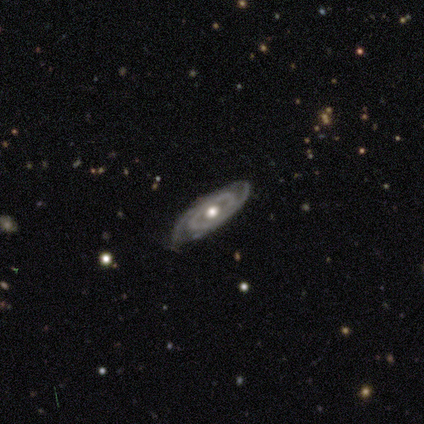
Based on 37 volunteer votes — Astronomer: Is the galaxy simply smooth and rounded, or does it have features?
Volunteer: featured or disk — 92%.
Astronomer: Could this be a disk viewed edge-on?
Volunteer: no — 97%.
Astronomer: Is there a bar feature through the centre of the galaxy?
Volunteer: no — 91%.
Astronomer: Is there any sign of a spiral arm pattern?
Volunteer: yes — 91%.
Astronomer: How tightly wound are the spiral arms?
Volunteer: tight — 80%.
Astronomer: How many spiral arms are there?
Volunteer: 2 — 53% (runner-up: can't tell, 33%).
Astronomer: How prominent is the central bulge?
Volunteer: moderate — 70%.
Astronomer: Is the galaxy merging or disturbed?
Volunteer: none — 78%.